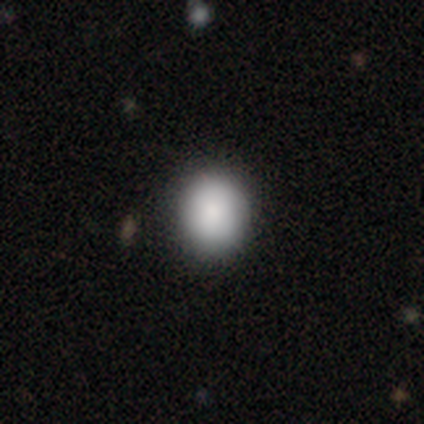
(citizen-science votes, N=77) Morphology: type=smooth (84%); roundness=round (68%); merging=none (46%).